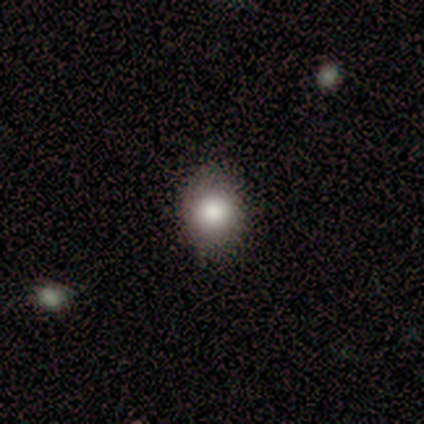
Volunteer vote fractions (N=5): Smooth or featured? 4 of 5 (80%) said smooth. How rounded? 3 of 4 (75%) said round. Merging? 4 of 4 (100%) said none.